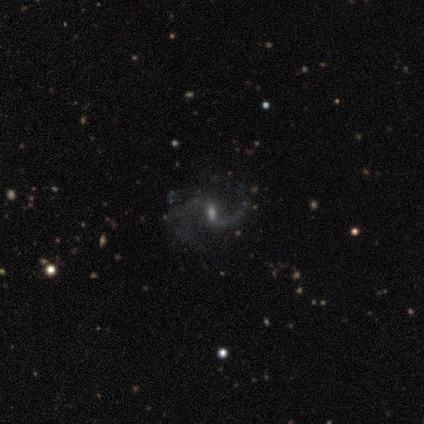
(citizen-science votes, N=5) Q: Smooth or featured?
A: featured or disk (100%)
Q: Edge-on disk?
A: no (100%)
Q: Bar?
A: weak (80%); runner-up: strong (20%)
Q: Spiral arms?
A: yes (80%); runner-up: no (20%)
Q: Spiral winding?
A: loose (75%); runner-up: medium (25%)
Q: Spiral arm count?
A: 2 (100%)
Q: Bulge size?
A: small (60%); runner-up: large (20%)
Q: Merging?
A: none (60%); runner-up: minor disturbance (20%)